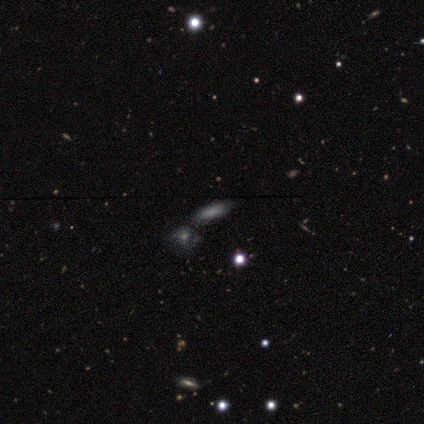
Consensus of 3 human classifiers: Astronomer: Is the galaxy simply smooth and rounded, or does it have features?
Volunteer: featured or disk — 67%.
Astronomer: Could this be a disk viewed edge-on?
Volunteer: no — 100%.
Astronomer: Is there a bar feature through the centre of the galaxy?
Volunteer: no — 100%.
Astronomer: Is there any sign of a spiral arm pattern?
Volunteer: yes — 50%, tied with no at 50%.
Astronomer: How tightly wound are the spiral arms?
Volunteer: tight — 100%.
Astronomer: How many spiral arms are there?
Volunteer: can't tell — 100%.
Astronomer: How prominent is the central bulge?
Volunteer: small — 50%, tied with none at 50%.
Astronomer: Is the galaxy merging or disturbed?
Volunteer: none — 67%.